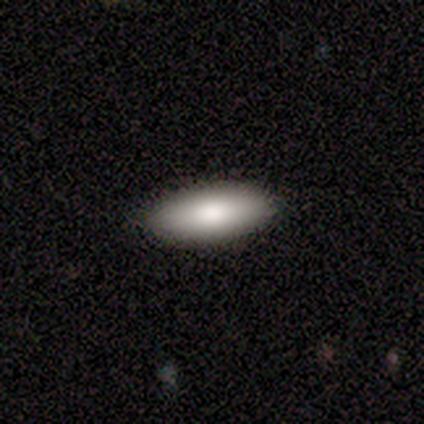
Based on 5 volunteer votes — This appears to be a smooth galaxy with no disk features (100%) that is in between round and cigar-shaped (100%). Merging: none (100%).